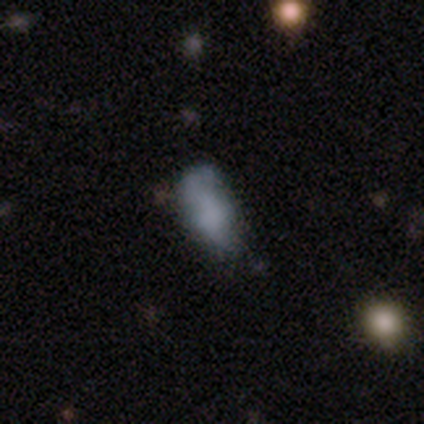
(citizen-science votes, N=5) Overall: smooth (60%; star or artifact 40%). How rounded: in between (100%). Merging: none (67%; minor disturbance 33%).